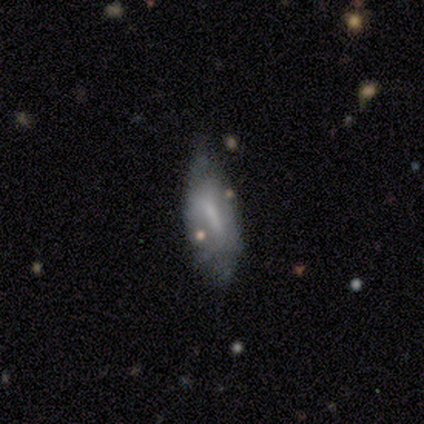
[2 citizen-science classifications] This appears to be a featured or disk galaxy (100%) with a strong bar (50%, tied with weak), no spiral arms (100%) and a large central bulge (50%, tied with none). Merging: none (50%, tied with minor disturbance).